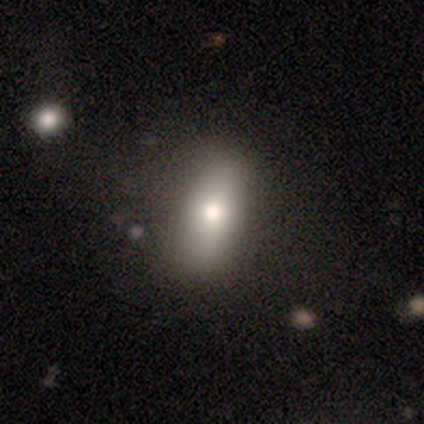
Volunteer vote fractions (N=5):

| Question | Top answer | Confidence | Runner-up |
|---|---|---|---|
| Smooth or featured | smooth | 80% | featured or disk (20%) |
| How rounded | in between | 75% | cigar-shaped (25%) |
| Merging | none | 80% | merger (20%) |